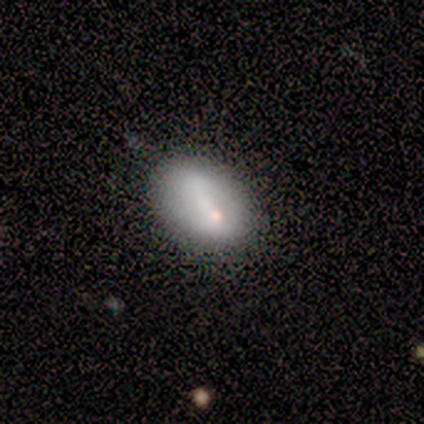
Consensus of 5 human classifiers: Overall: smooth (100%). How rounded: in between (100%). Merging: none (60%; minor disturbance 20%).